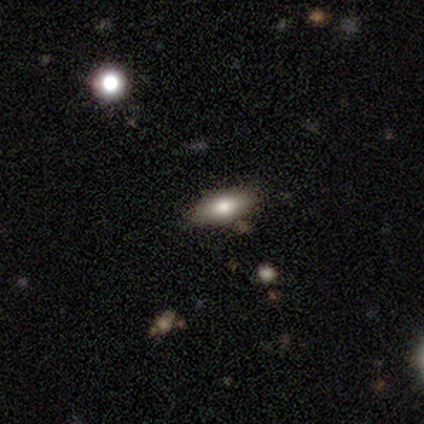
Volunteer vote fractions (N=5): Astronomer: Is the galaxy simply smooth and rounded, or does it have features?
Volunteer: smooth — 100%.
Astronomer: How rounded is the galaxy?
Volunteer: in between — 100%.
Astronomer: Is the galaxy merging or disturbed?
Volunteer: none — 80%.